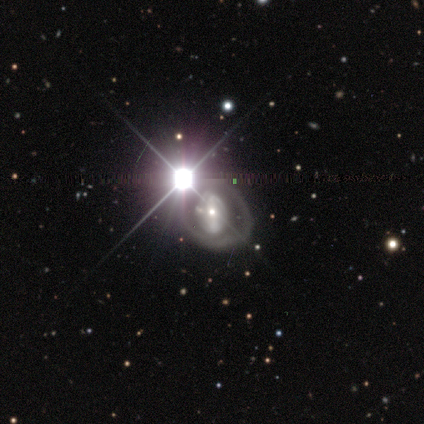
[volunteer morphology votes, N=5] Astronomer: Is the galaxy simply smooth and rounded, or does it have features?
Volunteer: star or artifact — 60%.